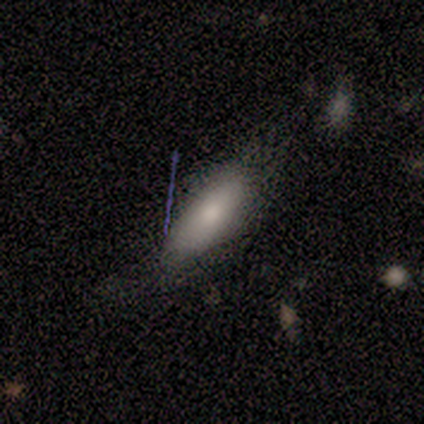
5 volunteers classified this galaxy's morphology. smooth-or-featured: smooth: 80% | star or artifact: 20% | featured or disk: 0%
  how-rounded: in between: 50% (tied) | cigar-shaped: 50% (tied) | round: 0%
  merging: none: 50% | minor disturbance: 25% | major disturbance: 25% | merger: 0%